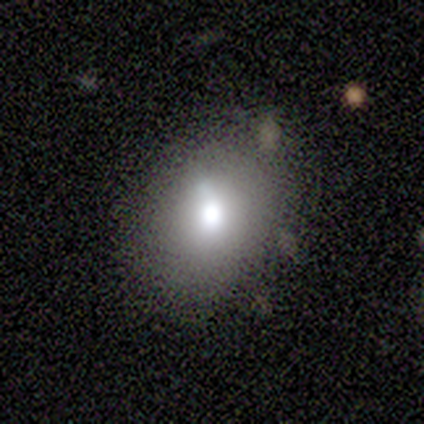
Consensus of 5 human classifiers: smooth 40% (tied), featured or disk 40% (tied), star or artifact 20%. Down the decision tree: how rounded — round (50%, tied with in between); merging — none (100%).